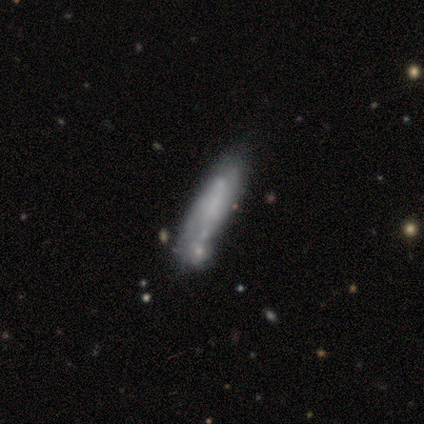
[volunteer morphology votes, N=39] This is possibly a featured or disk galaxy (56%). It is likely not viewed edge-on (64%). Bar: likely no (79%). Spiral arm pattern: likely no (64%). Central bulge: possibly none (57%). Merging: marginally merger (36%).